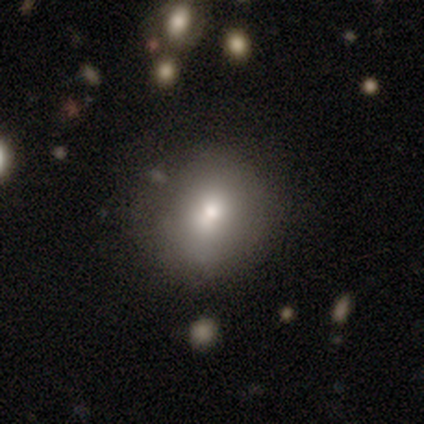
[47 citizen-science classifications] A smooth galaxy with no disk features (83%) that is round (87%).

Vote fractions:
- Smooth or featured? smooth: 83% / featured or disk: 11% / star or artifact: 6%
- How rounded? round: 87% / in between: 13% / cigar-shaped: 0%
- Merging? none: 77% / minor disturbance: 14% / major disturbance: 5% / merger: 5%